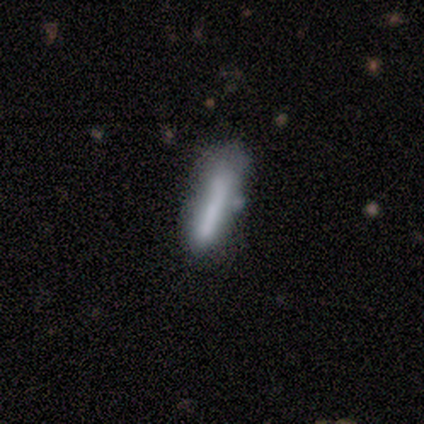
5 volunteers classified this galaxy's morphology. Overall: smooth (80%). How rounded: cigar-shaped (75%). Merging: none (75%).